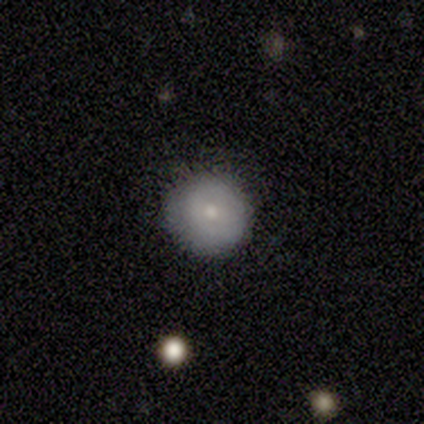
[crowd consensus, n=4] Consensus on every question: smooth or featured — smooth (100%); how rounded — round (100%); merging — none (100%).